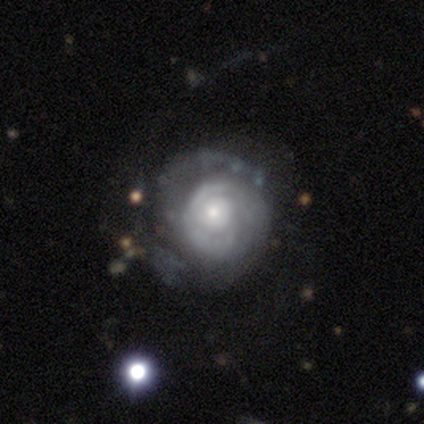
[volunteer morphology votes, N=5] type=featured or disk (100%); edge-on=no (100%); bar=weak (60%); spiral arms=yes (100%); winding=tight (80%); arm count=2 (40%, tied with can't tell); bulge=small (60%); merging=none (60%).